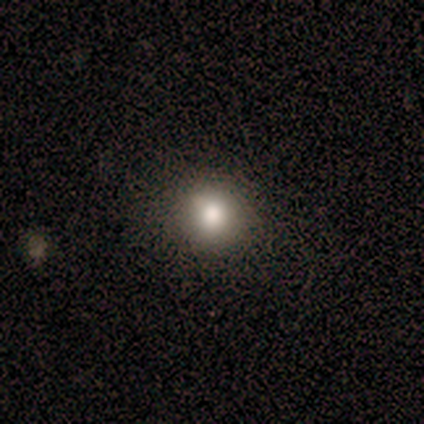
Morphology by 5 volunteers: A smooth galaxy with no disk features (100%) that is round (100%).

Vote fractions:
- Smooth or featured? smooth: 100% / featured or disk: 0% / star or artifact: 0%
- How rounded? round: 100% / in between: 0% / cigar-shaped: 0%
- Merging? none: 100% / minor disturbance: 0% / major disturbance: 0% / merger: 0%